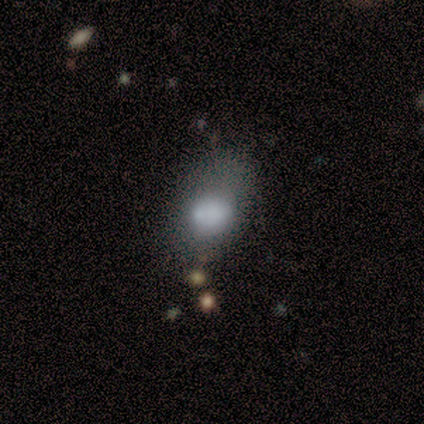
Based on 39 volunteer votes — smooth 69%, featured or disk 28%, star or artifact 3%. Down the decision tree: how rounded — in between (70%); merging — none (42%).